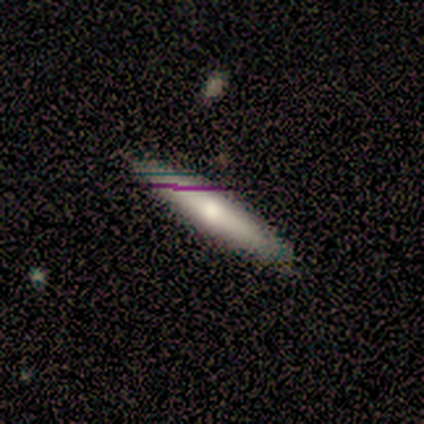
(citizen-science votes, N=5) smooth-or-featured: smooth: 80% | featured or disk: 20% | star or artifact: 0%
  how-rounded: cigar-shaped: 75% | in between: 25% | round: 0%
  merging: none: 100% | minor disturbance: 0% | major disturbance: 0% | merger: 0%